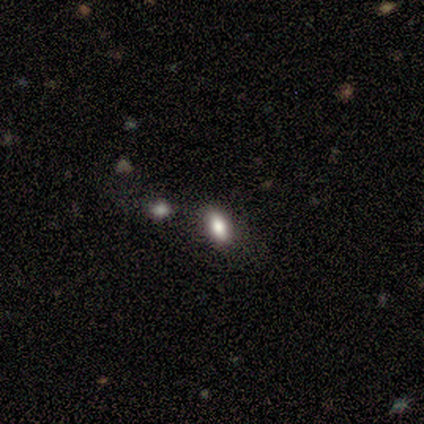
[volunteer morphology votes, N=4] smooth 75%, featured or disk 25%, star or artifact 0%. Down the decision tree: how rounded — in between (100%); merging — none (50%).